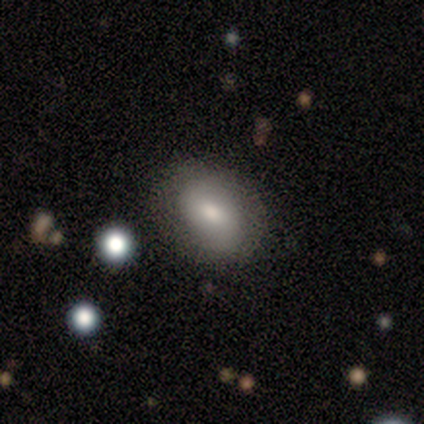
Smooth or featured: smooth — 60% (featured or disk — 40%)
How rounded: in between — 67% (round — 33%)
Merging: none — 100%